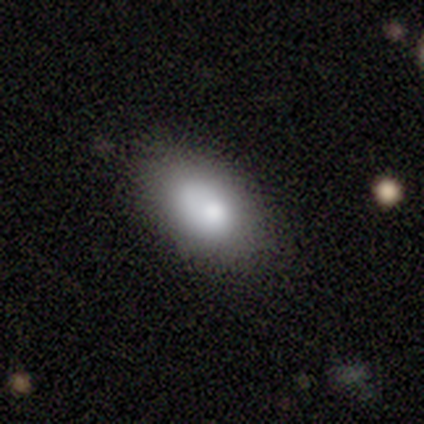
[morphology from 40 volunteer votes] Volunteers were most divided on "smooth or featured": smooth: 68%, featured or disk: 28%, star or artifact: 5%. More confident: how rounded — in between (96%); merging — none (66%).